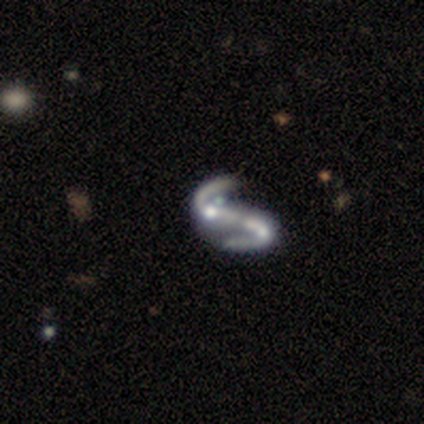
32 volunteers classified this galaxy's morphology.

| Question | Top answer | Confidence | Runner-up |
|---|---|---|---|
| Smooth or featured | featured or disk | 94% | star or artifact (6%) |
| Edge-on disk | no | 100% | — |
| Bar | no | 50% | strong (43%) |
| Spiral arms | yes | 83% | no (17%) |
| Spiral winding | loose | 68% | medium (28%) |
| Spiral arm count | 2 | 92% | 1 (4%) |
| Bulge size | moderate | 47% | none (33%) |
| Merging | none | 40% | merger (33%) |